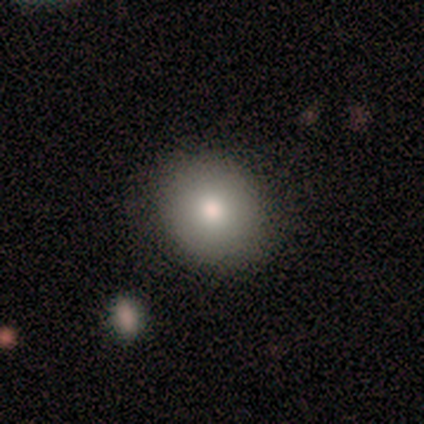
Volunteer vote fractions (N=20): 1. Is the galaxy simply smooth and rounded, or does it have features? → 80% smooth, 15% featured or disk, 5% star or artifact.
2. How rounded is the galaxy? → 69% round, 31% in between, 0% cigar-shaped.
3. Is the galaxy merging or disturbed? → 84% none, 11% minor disturbance, 5% major disturbance, 0% merger.